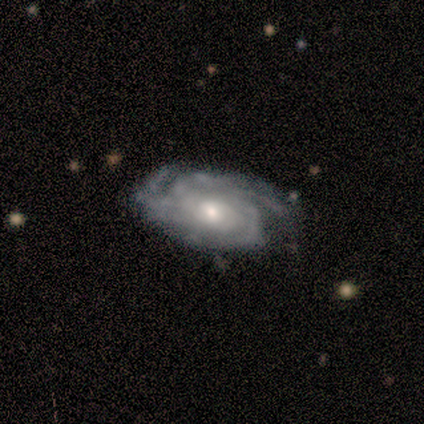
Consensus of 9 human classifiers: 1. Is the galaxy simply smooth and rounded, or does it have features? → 89% featured or disk, 11% smooth, 0% star or artifact.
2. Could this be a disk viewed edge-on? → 100% no, 0% yes.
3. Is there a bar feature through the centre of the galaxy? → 75% no, 12% strong, 12% weak.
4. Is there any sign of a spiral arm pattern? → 100% yes, 0% no.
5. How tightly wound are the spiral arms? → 88% tight, 12% medium, 0% loose.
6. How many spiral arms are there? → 50% 3, 38% can't tell, 12% more than 4, 0% 1, 0% 2, 0% 4.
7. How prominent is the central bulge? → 75% moderate, 25% small, 0% dominant, 0% large, 0% none.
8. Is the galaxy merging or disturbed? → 100% none, 0% minor disturbance, 0% major disturbance, 0% merger.